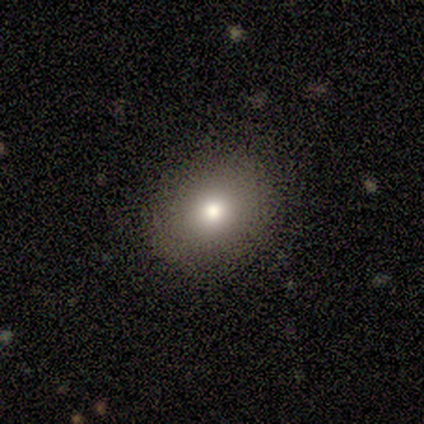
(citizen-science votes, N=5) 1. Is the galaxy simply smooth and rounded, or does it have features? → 80% smooth, 20% featured or disk, 0% star or artifact.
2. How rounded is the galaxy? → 75% round, 25% in between, 0% cigar-shaped.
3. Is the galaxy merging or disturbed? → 100% none, 0% minor disturbance, 0% major disturbance, 0% merger.